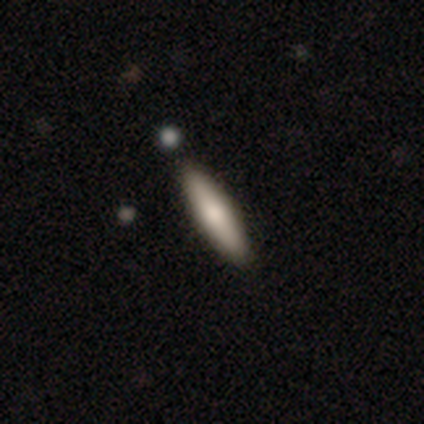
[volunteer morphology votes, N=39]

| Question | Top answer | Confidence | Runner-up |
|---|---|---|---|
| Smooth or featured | smooth | 79% | featured or disk (18%) |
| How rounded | cigar-shaped | 94% | in between (6%) |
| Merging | none | 92% | minor disturbance (3%) |